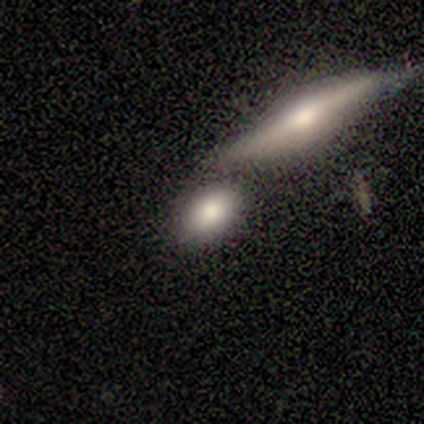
A smooth galaxy with no disk features (60%) that is cigar-shaped (67%). Merging: minor disturbance (60%).